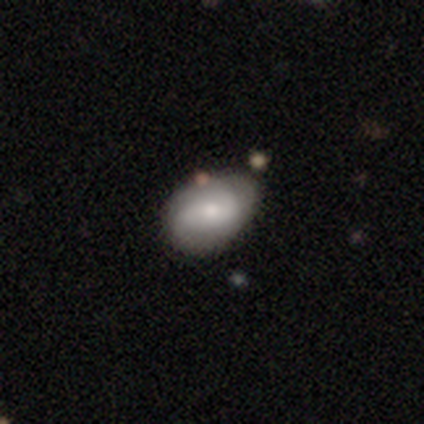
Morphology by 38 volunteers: featured or disk 53%, smooth 47%, star or artifact 0%. Down the decision tree: edge-on disk — no (100%); bar — no (60%); spiral arms — yes (70%); spiral arm count — 2 (71%); spiral winding — medium (36%, tied with loose); bulge size — small (60%); merging — none (66%).